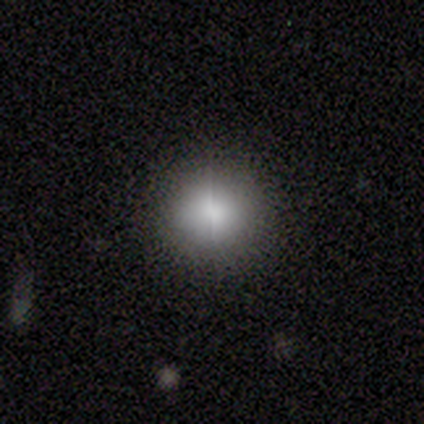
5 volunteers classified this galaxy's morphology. This appears to be a smooth galaxy with no disk features (80%) that is round (100%). Merging: none (100%).